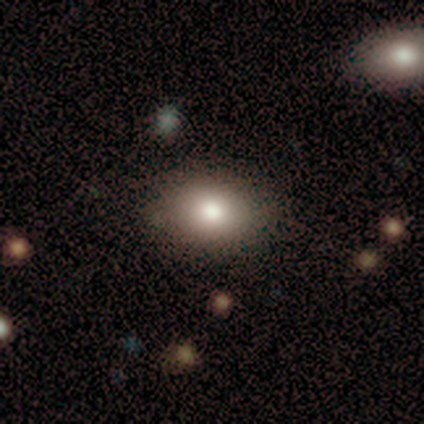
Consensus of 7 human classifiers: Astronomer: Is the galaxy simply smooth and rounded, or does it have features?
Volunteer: smooth — 100%.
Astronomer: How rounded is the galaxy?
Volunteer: in between — 86%.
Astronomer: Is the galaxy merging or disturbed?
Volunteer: none — 71%.